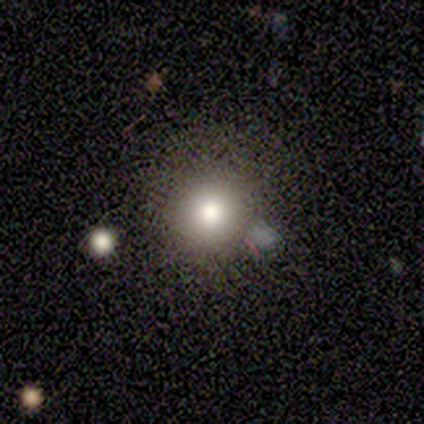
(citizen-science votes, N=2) A smooth galaxy with no disk features (100%) that is round (50%, tied with in between).

Vote fractions:
- Smooth or featured? smooth: 100% / featured or disk: 0% / star or artifact: 0%
- How rounded? round: 50% (tied) / in between: 50% (tied) / cigar-shaped: 0%
- Merging? none: 50% (tied) / merger: 50% (tied) / minor disturbance: 0% / major disturbance: 0%